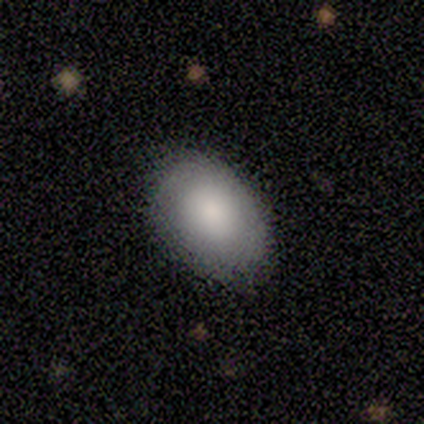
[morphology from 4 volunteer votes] smooth-or-featured: smooth: 100% | featured or disk: 0% | star or artifact: 0%
  how-rounded: in between: 100% | round: 0% | cigar-shaped: 0%
  merging: none: 100% | minor disturbance: 0% | major disturbance: 0% | merger: 0%